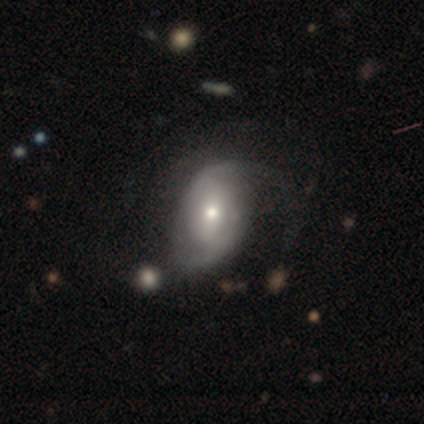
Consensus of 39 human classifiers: Volunteers were most divided on "bar" (2-way tie): weak: 34%, no: 34%, strong: 31%; "bulge size" (2-way tie): moderate: 45%, small: 45%, large: 7%, dominant: 3%, none: 0%. Remaining: edge-on disk — no (100%); spiral arms — yes (86%); spiral arm count — 2 (80%); smooth or featured — featured or disk (74%); merging — none (51%); spiral winding — medium (44%).